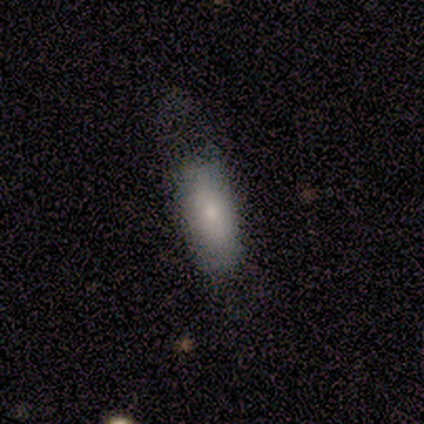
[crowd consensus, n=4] Smooth or featured? 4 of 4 (100%) said smooth. How rounded? 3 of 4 (75%) said in between. Merging? 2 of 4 (50%, tied with minor disturbance) said none.